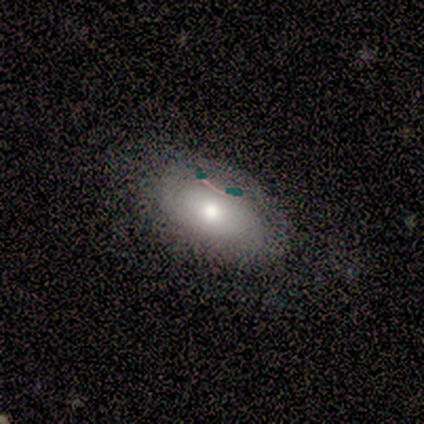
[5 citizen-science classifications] This appears to be a smooth galaxy with no disk features (80%) that is in between round and cigar-shaped (75%). Merging: none (80%).